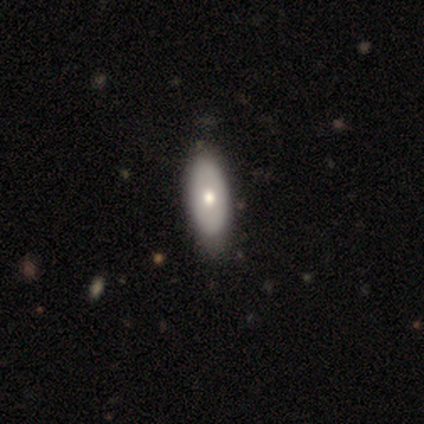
This appears to be a smooth galaxy with no disk features (67%) that is in between round and cigar-shaped (100%). Merging: none (100%).